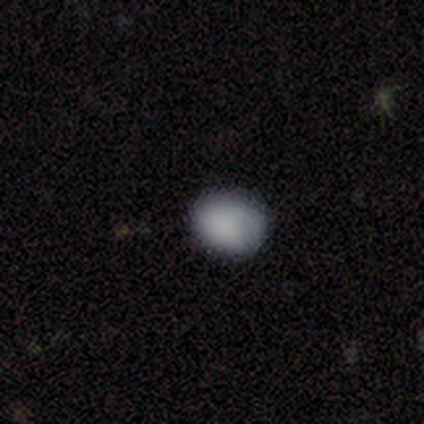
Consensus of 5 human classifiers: This appears to be a smooth galaxy with no disk features (100%) that is round (80%). Merging: none (80%).